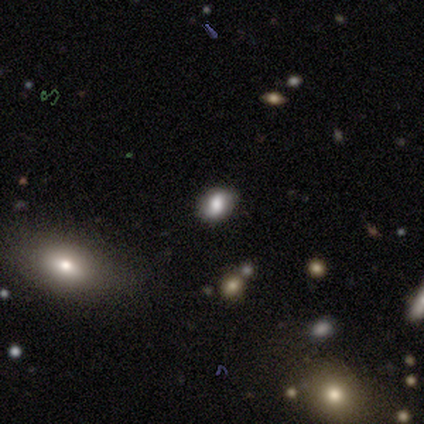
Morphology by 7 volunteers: type=smooth (43%); roundness=in between (67%); merging=none (80%).